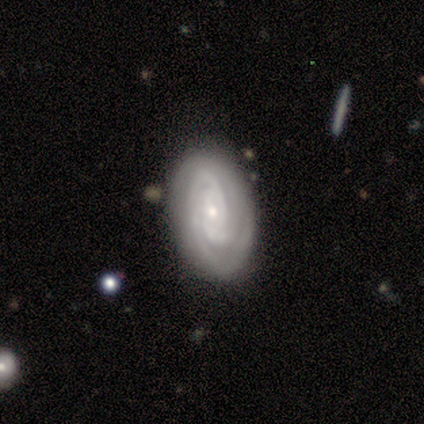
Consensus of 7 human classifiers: featured or disk 86%, smooth 14%, star or artifact 0%. Down the decision tree: edge-on disk — no (100%); bar — no (83%); spiral arms — yes (83%); spiral arm count — can't tell (40%); spiral winding — tight (100%); bulge size — small (83%); merging — none (71%).